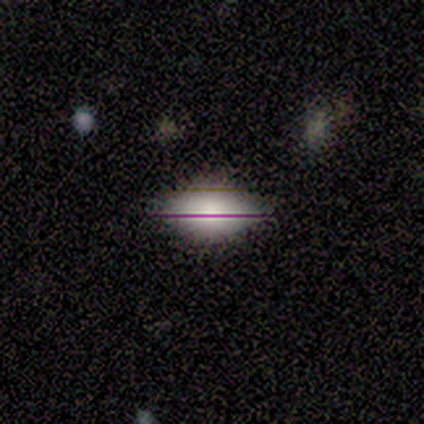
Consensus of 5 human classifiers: Smooth or featured? 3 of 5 (60%) said smooth. How rounded? 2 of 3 (67%) said in between. Merging? 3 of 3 (100%) said none.